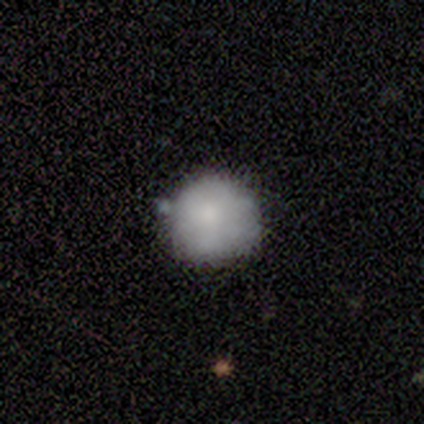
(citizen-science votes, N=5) Volunteers were most divided on "merging": none: 60%, merger: 40%, minor disturbance: 0%, major disturbance: 0%. More confident: how rounded — round (100%); smooth or featured — smooth (80%).